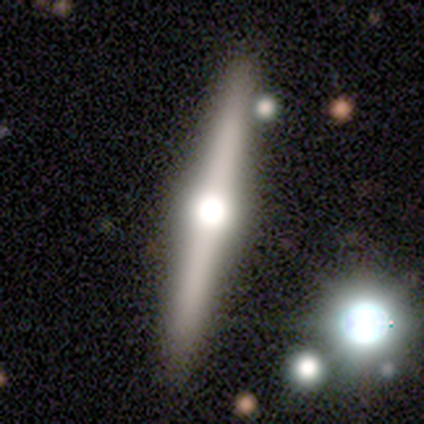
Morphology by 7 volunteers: smooth_or_featured: featured or disk (p=0.86) [alt: smooth p=0.14]
disk_edge_on: yes (p=1.00)
edge_on_bulge: rounded (p=1.00)
merging: none (p=0.71) [alt: minor disturbance p=0.14]